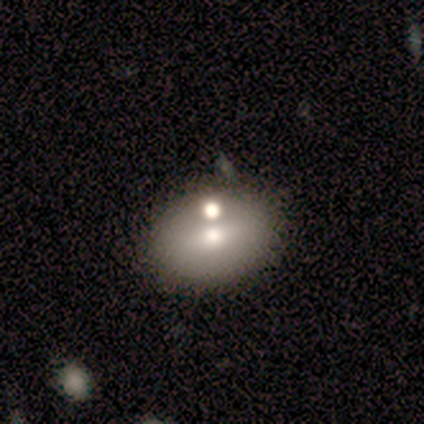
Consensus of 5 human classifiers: Smooth or featured? featured or disk (60%)
Edge-on disk? no (100%)
Bar? no (67%)
Spiral arms? no (100%)
Bulge size? moderate (67%)
Merging? none (100%)